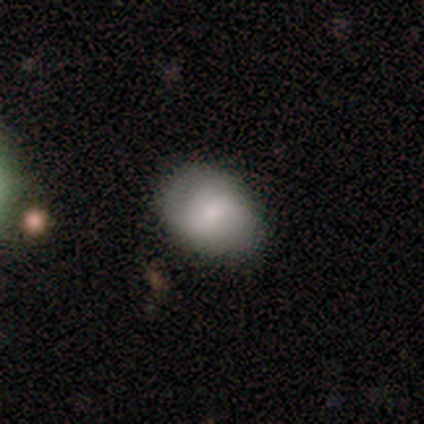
Q: Smooth or featured?
A: smooth (60%); runner-up: featured or disk (40%)
Q: How rounded?
A: in between (100%)
Q: Merging?
A: none (80%); runner-up: minor disturbance (20%)